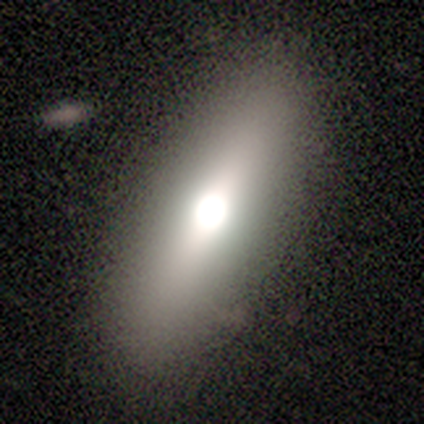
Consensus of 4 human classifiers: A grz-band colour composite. It shows a smooth galaxy with no disk features (75%) that is cigar-shaped (67%). Merging: none (100%).